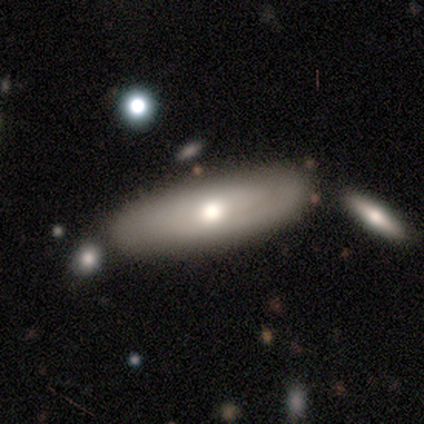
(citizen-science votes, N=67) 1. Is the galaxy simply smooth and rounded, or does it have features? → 60% smooth, 31% featured or disk, 9% star or artifact.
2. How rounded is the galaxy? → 60% in between, 40% cigar-shaped, 0% round.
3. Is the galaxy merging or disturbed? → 48% none, 18% merger, 10% minor disturbance, 2% major disturbance.